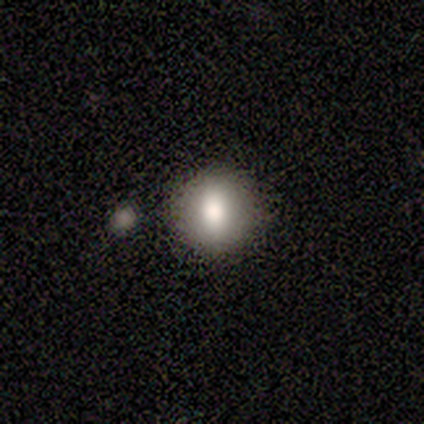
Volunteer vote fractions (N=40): Morphology: type=smooth (82%); roundness=round (88%); merging=none (87%).